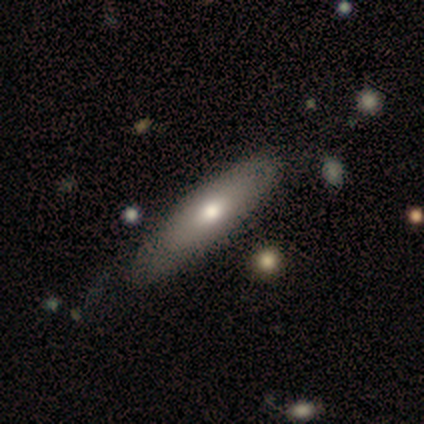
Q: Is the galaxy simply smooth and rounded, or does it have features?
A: smooth — 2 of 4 (50%, tied with featured or disk).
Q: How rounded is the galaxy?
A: in between — 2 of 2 (100%).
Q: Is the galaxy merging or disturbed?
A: none — 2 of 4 (50%, tied with minor disturbance).